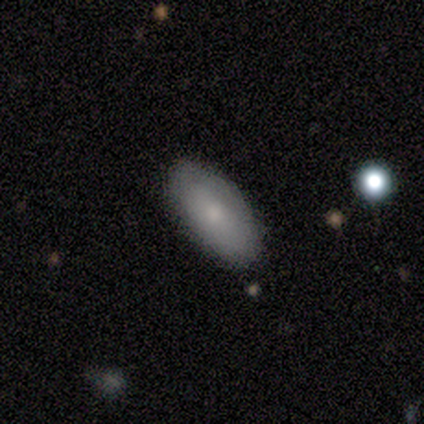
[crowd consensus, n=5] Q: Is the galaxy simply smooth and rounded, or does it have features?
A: smooth — 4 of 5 (80%).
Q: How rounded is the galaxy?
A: in between — 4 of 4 (100%).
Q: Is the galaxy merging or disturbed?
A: none — 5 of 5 (100%).